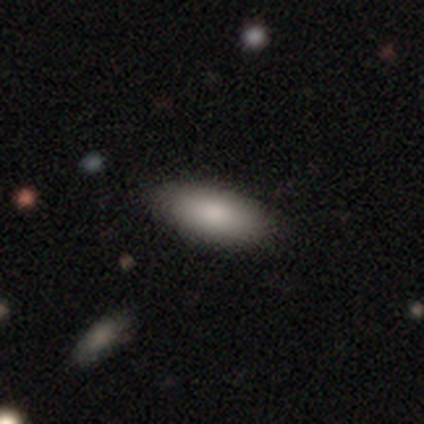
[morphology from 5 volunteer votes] Smooth or featured? 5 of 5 (100%) said smooth. How rounded? 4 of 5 (80%) said in between. Merging? 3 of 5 (60%) said none.